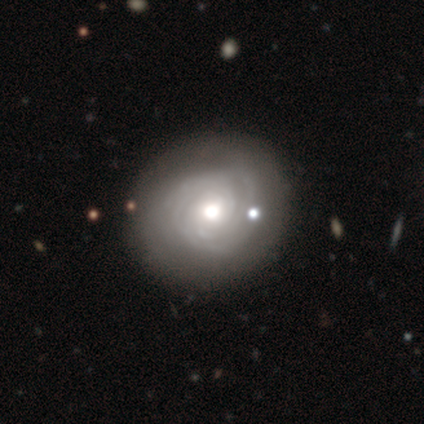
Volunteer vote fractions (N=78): Smooth or featured? 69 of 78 (88%) said featured or disk. Edge-on disk? 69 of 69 (100%) said no. Bar? 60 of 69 (87%) said no. Spiral arms? 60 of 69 (87%) said yes. Spiral winding? 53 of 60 (88%) said tight. Spiral arm count? 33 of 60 (55%) said can't tell. Bulge size? 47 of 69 (68%) said moderate. Merging? 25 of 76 (33%) said none.